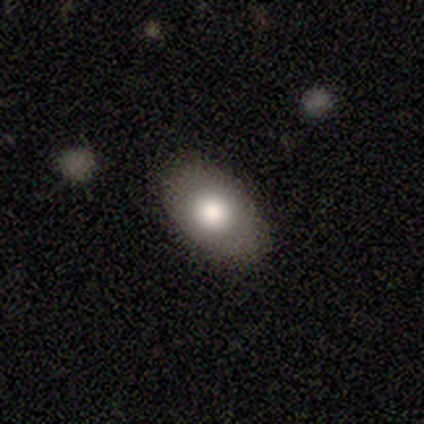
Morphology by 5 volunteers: Smooth or featured?
  - smooth: 60% *
  - featured or disk: 40%
  - star or artifact: 0%
How rounded?
  - in between: 100% *
  - round: 0%
  - cigar-shaped: 0%
Merging?
  - none: 100% *
  - minor disturbance: 0%
  - major disturbance: 0%
  - merger: 0%